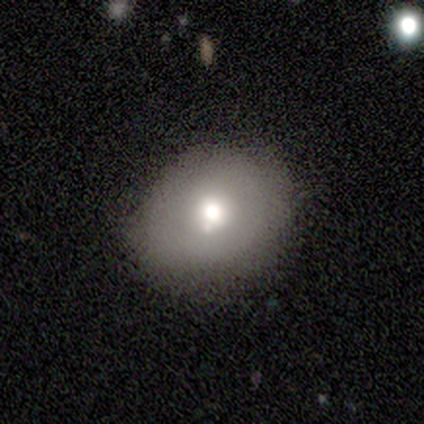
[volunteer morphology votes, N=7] Overall: smooth (57%; featured or disk 43%). How rounded: round (75%). Merging: none (86%).